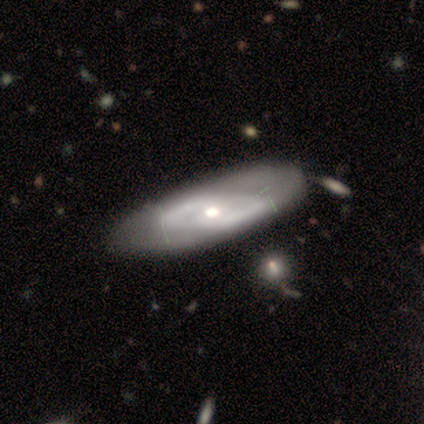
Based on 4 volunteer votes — Q: Smooth or featured?
A: featured or disk (100%)
Q: Edge-on disk?
A: no (100%)
Q: Bar?
A: weak (75%); runner-up: strong (25%)
Q: Spiral arms?
A: yes (50%); tied with: no (50%)
Q: Spiral winding?
A: tight (50%); tied with: medium (50%)
Q: Spiral arm count?
A: 2 (100%)
Q: Bulge size?
A: moderate (100%)
Q: Merging?
A: none (100%)